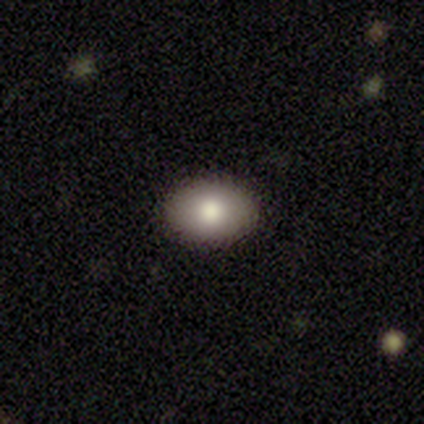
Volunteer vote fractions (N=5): Smooth or featured? 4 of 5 (80%) said smooth. How rounded? 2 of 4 (50%, tied with in between) said round. Merging? 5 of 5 (100%) said none.